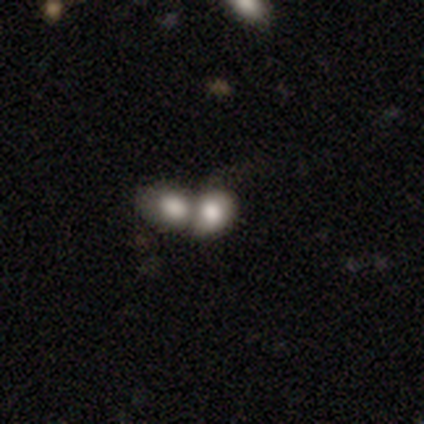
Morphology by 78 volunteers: Smooth or featured: smooth — 83% (featured or disk — 12%)
How rounded: in between — 58% (round — 42%)
Merging: merger — 78% (none — 3%)